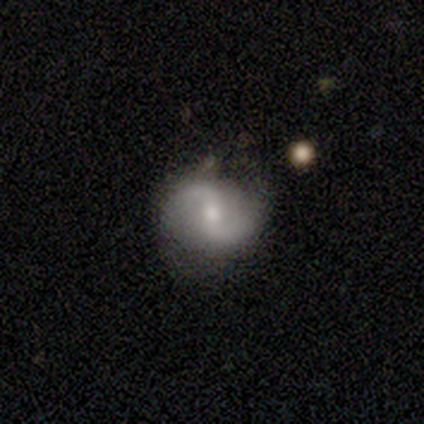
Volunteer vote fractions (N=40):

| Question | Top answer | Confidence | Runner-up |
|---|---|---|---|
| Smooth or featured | featured or disk | 75% | smooth (15%) |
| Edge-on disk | no | 100% | — |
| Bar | weak | 50% | strong (30%) |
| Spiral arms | yes | 97% | no (3%) |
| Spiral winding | loose | 55% | medium (41%) |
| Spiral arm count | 2 | 100% | — |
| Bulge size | moderate | 63% | small (33%) |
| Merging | none | 67% | minor disturbance (25%) |